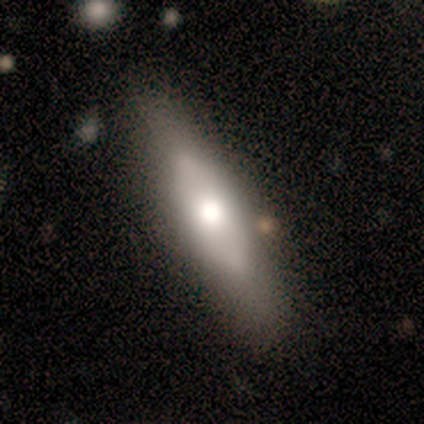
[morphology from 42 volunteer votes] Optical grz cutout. It shows a smooth galaxy with no disk features (50%) that is in between round and cigar-shaped (57%). Merging: none (90%).